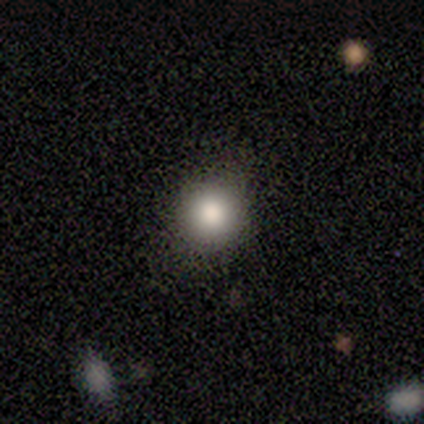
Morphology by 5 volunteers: This is likely a smooth galaxy (60%). How rounded: clearly round (100%). Merging: likely none (75%).